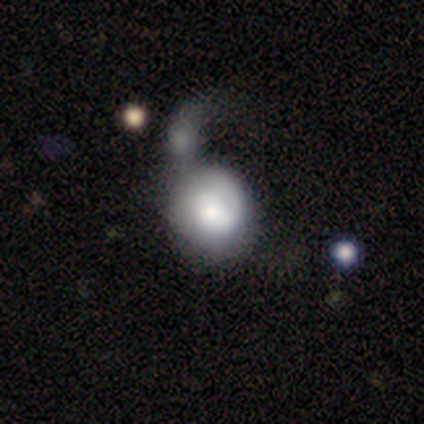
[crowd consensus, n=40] This appears to be a smooth galaxy with no disk features (52%) that is round (86%). Merging: major disturbance (41%).